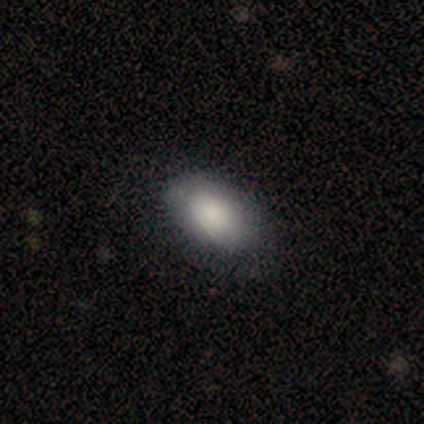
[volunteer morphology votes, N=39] Overall: smooth (77%). How rounded: in between (93%). Merging: none (69%).